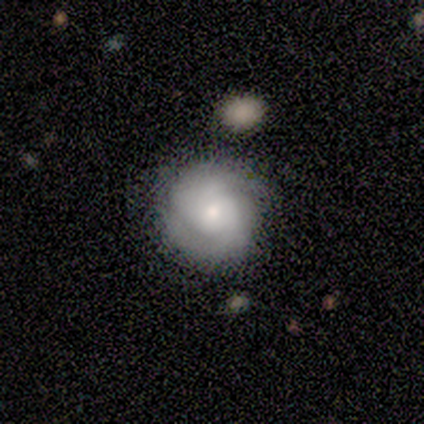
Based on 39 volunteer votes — featured or disk 54%, smooth 38%, star or artifact 8%. Down the decision tree: edge-on disk — no (100%); bar — no (86%); spiral arms — yes (86%); spiral arm count — 2 (50%); spiral winding — tight (61%); bulge size — small (52%); merging — none (83%).